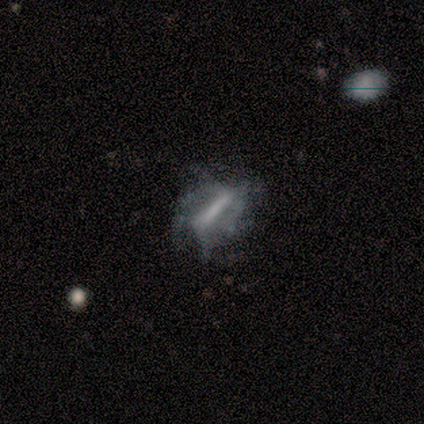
Volunteers were most divided on "spiral arms": yes: 52%, no: 48%. Remaining: edge-on disk — no (97%); bar — strong (86%); smooth or featured — featured or disk (75%); bulge size — none (48%); merging — major disturbance (47%); spiral winding — loose (40%); spiral arm count — can't tell (33%).